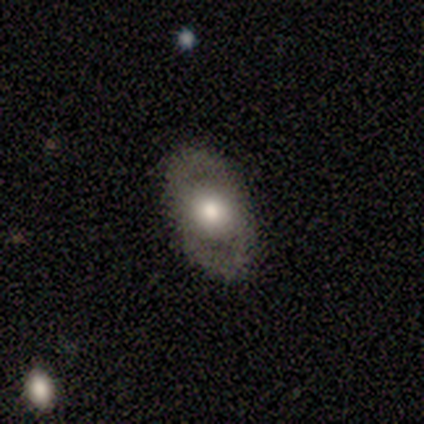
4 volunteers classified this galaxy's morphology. Smooth or featured: smooth — 50% (tied with featured or disk — 50%)
How rounded: in between — 100%
Merging: none — 100%